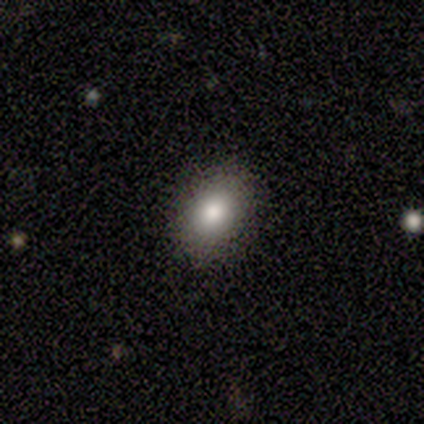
Smooth or featured?
  - smooth: 100% *
  - featured or disk: 0%
  - star or artifact: 0%
How rounded?
  - in between: 60% *
  - round: 40%
  - cigar-shaped: 0%
Merging?
  - none: 100% *
  - minor disturbance: 0%
  - major disturbance: 0%
  - merger: 0%